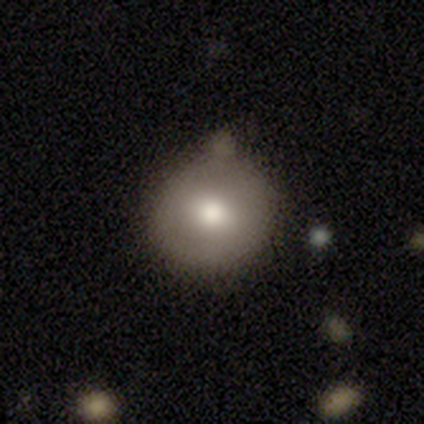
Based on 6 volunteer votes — Overall: smooth (83%). How rounded: round (100%). Merging: none (100%).